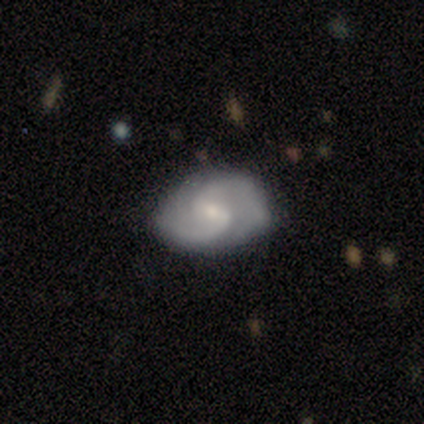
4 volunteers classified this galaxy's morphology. Volunteers were most divided on "bar" (2-way tie): weak: 50%, no: 50%, strong: 0%. More confident: smooth or featured — featured or disk (100%); edge-on disk — no (100%); spiral arm count — 2 (100%); bulge size — small (100%); merging — none (100%); spiral arms — yes (75%); spiral winding — medium (67%).